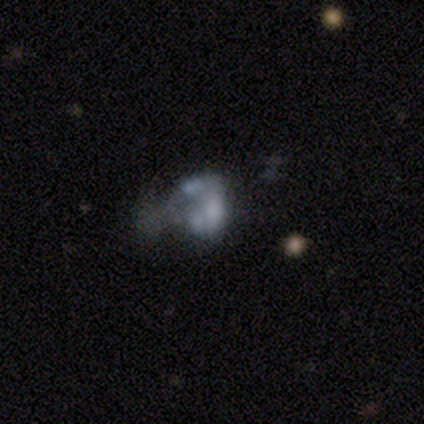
Volunteers were most divided on "merging": major disturbance: 50%, minor disturbance: 25%, merger: 25%, none: 0%. More confident: edge-on disk — no (100%); bar — no (100%); spiral arms — no (100%); bulge size — none (67%); smooth or featured — featured or disk (60%).